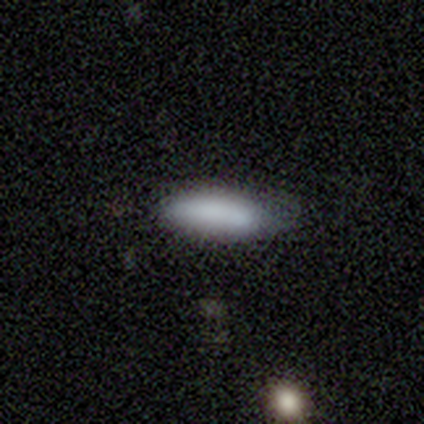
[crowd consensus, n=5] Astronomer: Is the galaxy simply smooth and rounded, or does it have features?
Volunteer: smooth — 100%.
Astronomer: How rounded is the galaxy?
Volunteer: cigar-shaped — 60% (runner-up: in between, 40%).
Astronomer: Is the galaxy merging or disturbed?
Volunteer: none — 60% (runner-up: minor disturbance, 40%).